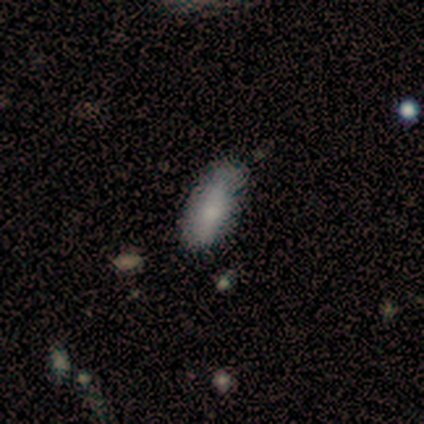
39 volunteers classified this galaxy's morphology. Smooth or featured? 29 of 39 (74%) said smooth. How rounded? 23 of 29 (79%) said in between. Merging? 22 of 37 (59%) said none.